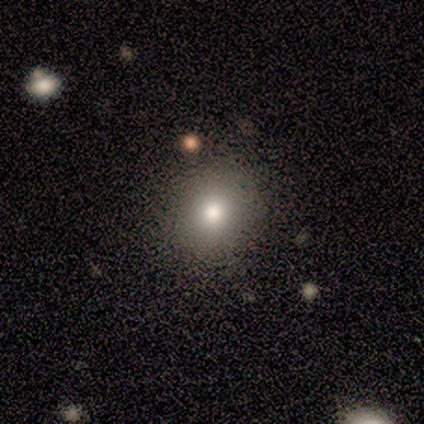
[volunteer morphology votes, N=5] Smooth or featured? 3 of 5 (60%) said featured or disk. Edge-on disk? 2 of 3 (67%) said no. Bar? 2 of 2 (100%) said no. Spiral arms? 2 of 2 (100%) said no. Bulge size? 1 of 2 (50%, tied with moderate) said large. Merging? 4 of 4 (100%) said none.